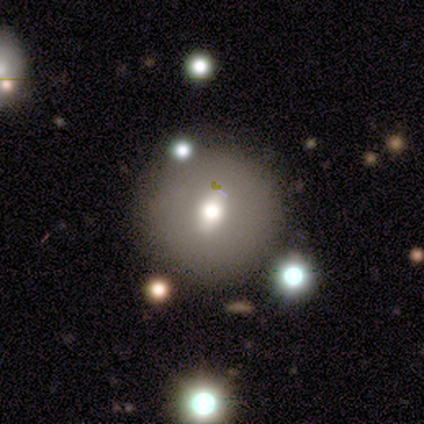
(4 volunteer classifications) Smooth or featured? 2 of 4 (50%) said smooth. How rounded? 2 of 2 (100%) said round. Merging? 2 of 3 (67%) said minor disturbance.